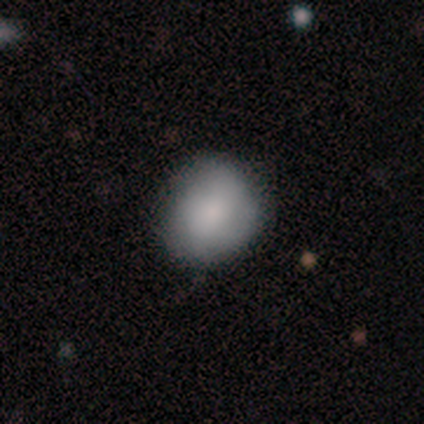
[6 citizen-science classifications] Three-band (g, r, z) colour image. It shows a smooth galaxy with no disk features (100%) that is round (50%, tied with in between). Merging: none (50%, tied with minor disturbance).